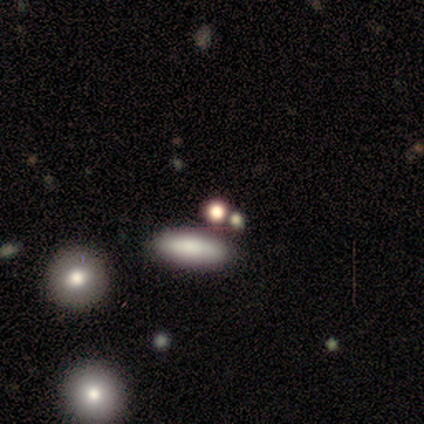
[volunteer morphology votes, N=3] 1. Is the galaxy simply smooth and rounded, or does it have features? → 67% smooth, 33% featured or disk, 0% star or artifact.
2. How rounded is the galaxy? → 50% in between (tied), 50% cigar-shaped (tied), 0% round.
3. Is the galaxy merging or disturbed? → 67% minor disturbance, 33% none, 0% major disturbance, 0% merger.